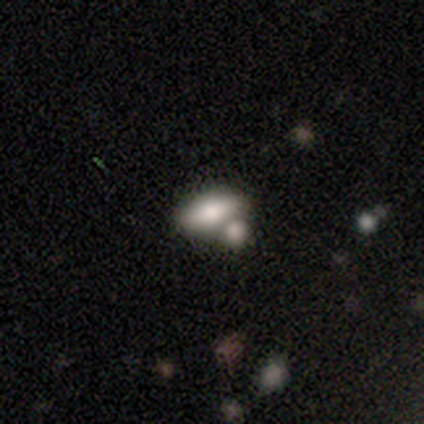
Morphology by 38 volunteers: smooth_or_featured: smooth (p=0.71) [alt: featured or disk p=0.18]
how_rounded: in between (p=0.81) [alt: cigar-shaped p=0.11]
merging: merger (p=0.74)